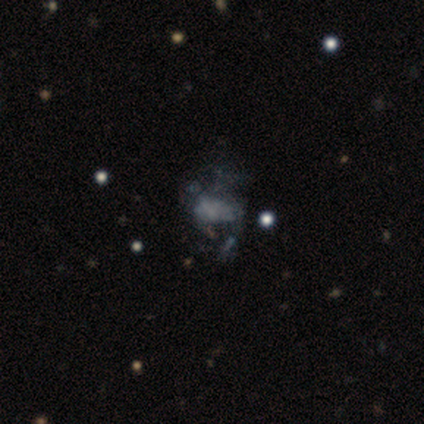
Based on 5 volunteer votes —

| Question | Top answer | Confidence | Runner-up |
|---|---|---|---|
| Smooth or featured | featured or disk | 60% | smooth (40%) |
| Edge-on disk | no | 100% | — |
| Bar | no | 100% | — |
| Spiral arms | no | 100% | — |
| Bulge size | none | 67% | small (33%) |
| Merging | none | 60% | major disturbance (20%) |